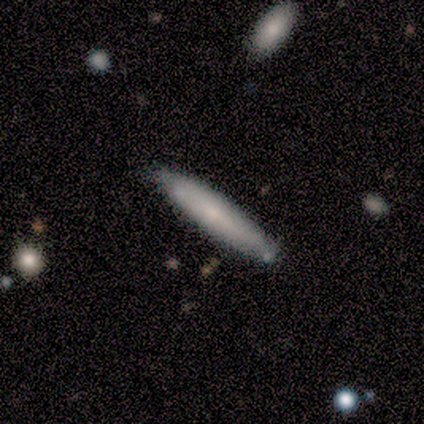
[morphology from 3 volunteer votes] Smooth or featured? 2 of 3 (67%) said featured or disk. Edge-on disk? 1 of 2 (50%, tied with no) said yes. Edge-on bulge? 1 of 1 (100%) said none. Merging? 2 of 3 (67%) said none.